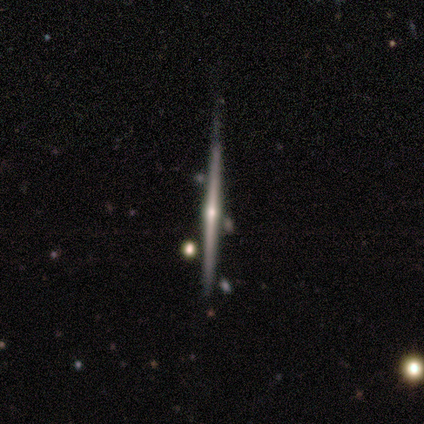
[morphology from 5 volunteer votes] Overall: featured or disk (60%; smooth 40%). Edge-on disk: yes (100%). Edge-on bulge: rounded (100%). Merging: none (100%).